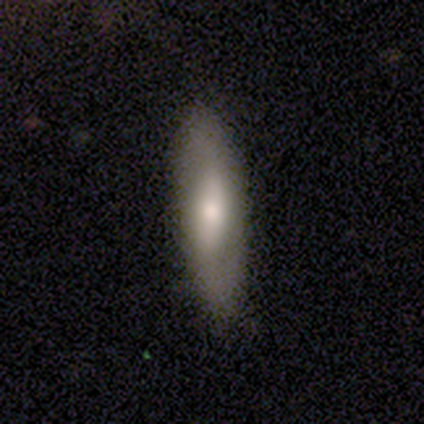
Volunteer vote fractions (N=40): Q: Smooth or featured?
A: smooth (50%); runner-up: featured or disk (48%)
Q: How rounded?
A: in between (65%); runner-up: cigar-shaped (35%)
Q: Merging?
A: none (51%); runner-up: minor disturbance (15%)